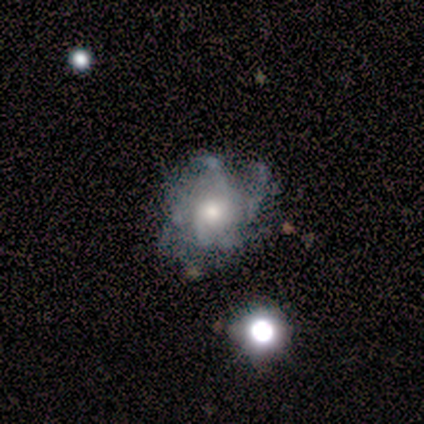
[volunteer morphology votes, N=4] smooth_or_featured: featured or disk (p=0.75) [alt: smooth p=0.25]
disk_edge_on: no (p=1.00)
bar: no (p=1.00)
has_spiral_arms: yes (p=1.00)
spiral_winding: loose (p=1.00)
spiral_arm_count: can't tell (p=0.67) [alt: 4 p=0.33]
bulge_size: moderate (p=1.00)
merging: none (p=0.75) [alt: minor disturbance p=0.25]